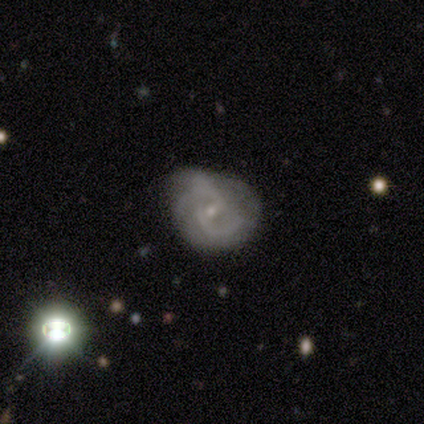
Morphology: type=featured or disk (84%); edge-on=no (100%); bar=weak (61%); spiral arms=yes (90%); winding=medium (57%); arm count=2 (57%); bulge=small (84%); merging=minor disturbance (39%).